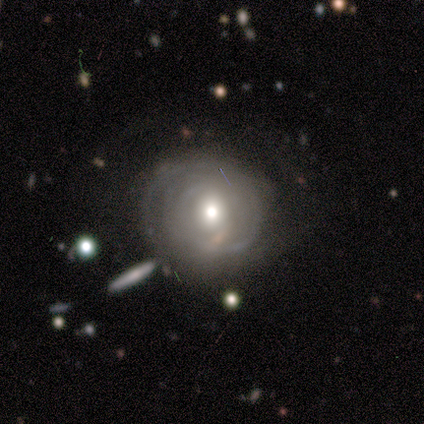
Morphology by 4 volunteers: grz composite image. It shows a featured or disk galaxy (75%) with a weak bar (50%, tied with no), 3 (100%) tight (100%) spiral arms (50%, tied with no) and a large central bulge (50%, tied with small). Merging: major disturbance (75%).